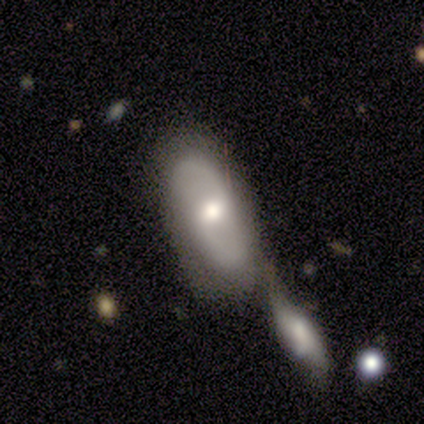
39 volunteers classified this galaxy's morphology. Smooth or featured: smooth — 64% (featured or disk — 31%)
How rounded: in between — 84% (cigar-shaped — 12%)
Merging: merger — 68% (none — 19%)